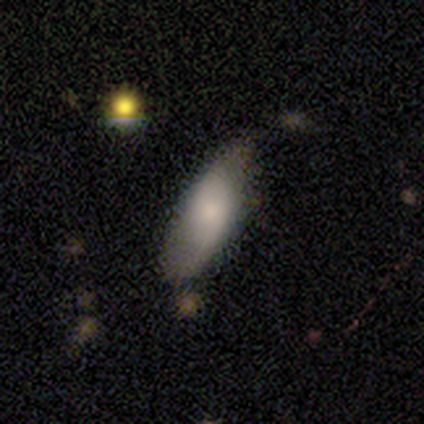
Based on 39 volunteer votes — Smooth or featured? smooth (59%)
How rounded? in between (70%)
Merging? none (50%)